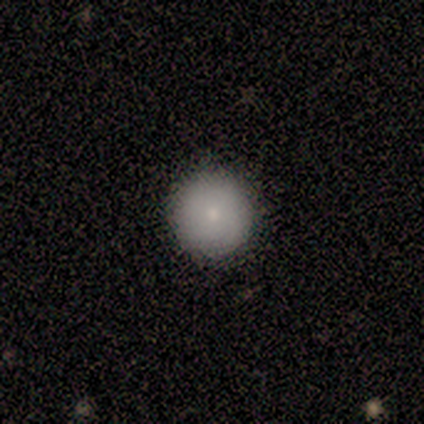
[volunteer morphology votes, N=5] Volunteers were most divided on "merging": none: 80%, minor disturbance: 20%, major disturbance: 0%, merger: 0%. More confident: smooth or featured — smooth (100%); how rounded — round (100%).